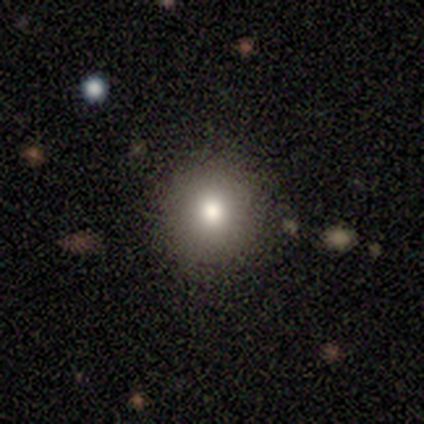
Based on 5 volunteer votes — Q: Smooth or featured?
A: smooth (100%)
Q: How rounded?
A: round (80%); runner-up: in between (20%)
Q: Merging?
A: none (100%)